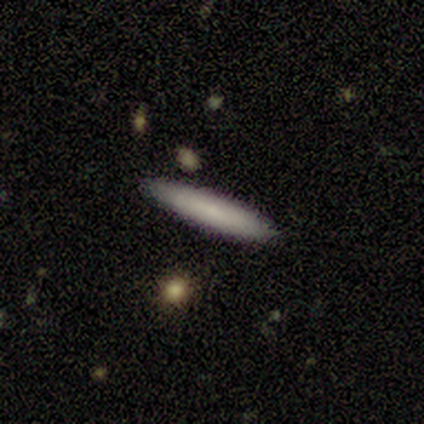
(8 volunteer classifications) Smooth or featured?
  - smooth: 62% *
  - featured or disk: 25%
  - star or artifact: 12%
How rounded?
  - cigar-shaped: 80% *
  - in between: 20%
  - round: 0%
Merging?
  - none: 100% *
  - minor disturbance: 0%
  - major disturbance: 0%
  - merger: 0%